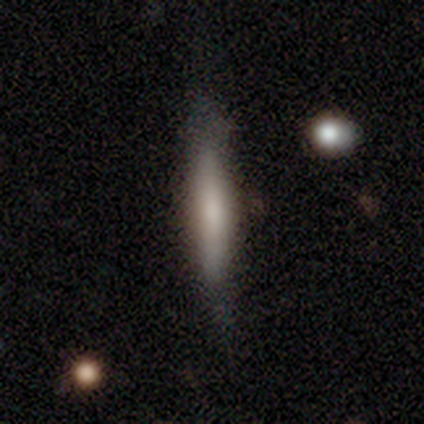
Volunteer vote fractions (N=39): This appears to be a smooth galaxy with no disk features (56%) that is cigar-shaped (86%). Merging: none (64%).